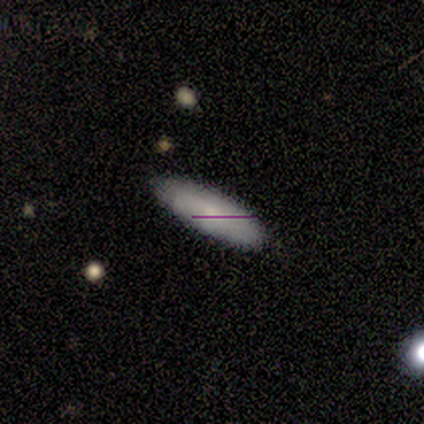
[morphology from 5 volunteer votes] Smooth or featured?
  - smooth: 60% *
  - featured or disk: 40%
  - star or artifact: 0%
How rounded?
  - in between: 67% *
  - cigar-shaped: 33%
  - round: 0%
Merging?
  - none: 60% *
  - minor disturbance: 40%
  - major disturbance: 0%
  - merger: 0%